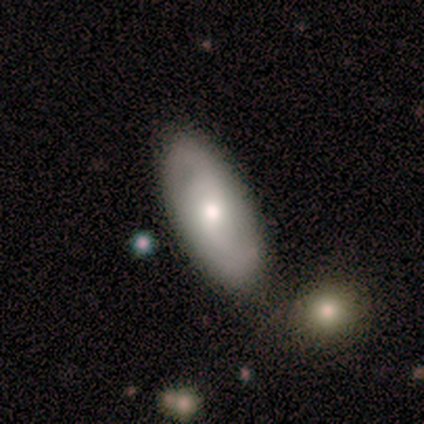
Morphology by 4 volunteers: smooth-or-featured: featured or disk: 50% | smooth: 25% | star or artifact: 25%
  disk-edge-on: no: 100% | yes: 0%
    bar: strong: 50% (tied) | no: 50% (tied) | weak: 0%
    has-spiral-arms: yes: 100% | no: 0%
      spiral-winding: tight: 50% (tied) | medium: 50% (tied) | loose: 0%
      spiral-arm-count: 2: 100% | 1: 0% | 3: 0% | 4: 0% | more than 4: 0% | can't tell: 0%
    bulge-size: moderate: 100% | dominant: 0% | large: 0% | small: 0% | none: 0%
  merging: none: 67% | major disturbance: 33% | minor disturbance: 0% | merger: 0%